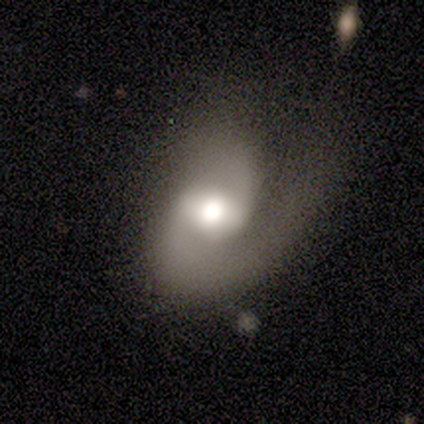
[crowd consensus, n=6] This appears to be a featured or disk galaxy (100%) with a weak bar (67%), 2 (67%) loose (50%) spiral arms (100%) and a large central bulge (50%, tied with moderate). Merging: none (67%).